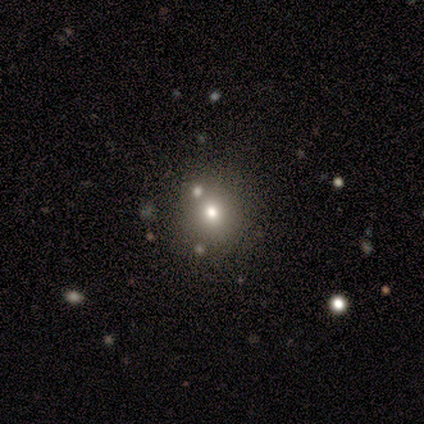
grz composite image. It shows a smooth galaxy with no disk features (80%) that is round (75%). Merging: none (60%).